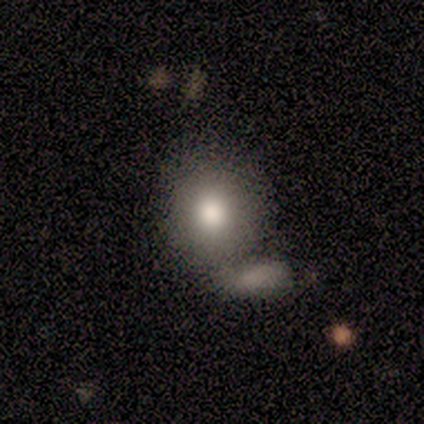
smooth_or_featured: smooth (p=0.76) [alt: featured or disk p=0.21]
how_rounded: round (p=0.76) [alt: in between p=0.24]
merging: merger (p=0.51) [alt: none p=0.30]